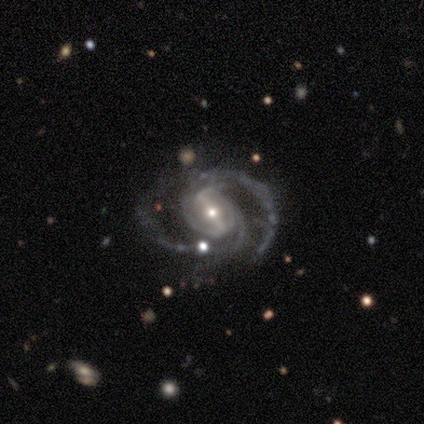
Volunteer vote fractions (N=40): Smooth or featured?
  - featured or disk: 98% *
  - star or artifact: 2%
  - smooth: 0%
Edge-on disk?
  - no: 92% *
  - yes: 8%
Bar?
  - strong: 67% *
  - no: 19%
  - weak: 14%
Spiral arms?
  - yes: 100% *
  - no: 0%
Spiral winding?
  - medium: 56% *
  - tight: 25%
  - loose: 19%
Spiral arm count?
  - 2: 64% *
  - 3: 19%
  - 4: 8%
  - can't tell: 8%
  - 1: 0%
  - more than 4: 0%
Bulge size?
  - small: 64% *
  - moderate: 31%
  - large: 3%
  - none: 3%
  - dominant: 0%
Merging?
  - none: 67% *
  - minor disturbance: 23%
  - major disturbance: 8%
  - merger: 3%